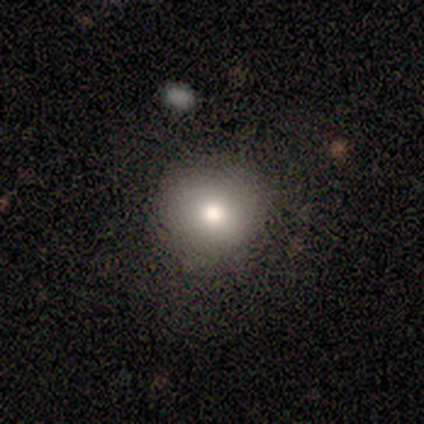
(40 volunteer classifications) A smooth galaxy with no disk features (90%) that is round (100%).

Vote fractions:
- Smooth or featured? smooth: 90% / featured or disk: 5% / star or artifact: 5%
- How rounded? round: 100% / in between: 0% / cigar-shaped: 0%
- Merging? none: 87% / minor disturbance: 8% / major disturbance: 3% / merger: 3%